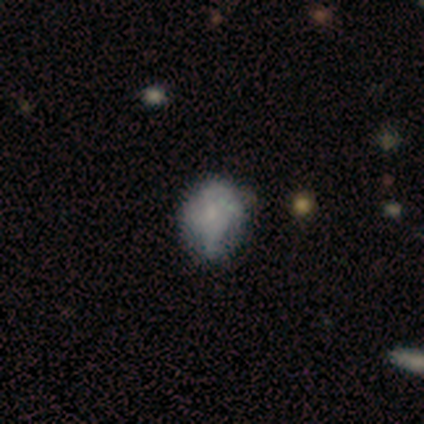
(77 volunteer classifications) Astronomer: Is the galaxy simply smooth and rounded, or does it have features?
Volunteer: featured or disk — 43% (runner-up: smooth, 40%).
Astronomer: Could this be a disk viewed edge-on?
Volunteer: no — 94%.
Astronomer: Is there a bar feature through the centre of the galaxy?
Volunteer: no — 90%.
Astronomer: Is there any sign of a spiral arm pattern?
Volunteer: no — 68%.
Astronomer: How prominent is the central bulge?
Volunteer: small — 48% (runner-up: none, 35%).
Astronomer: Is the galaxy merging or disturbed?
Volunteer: none — 48% (runner-up: minor disturbance, 27%).